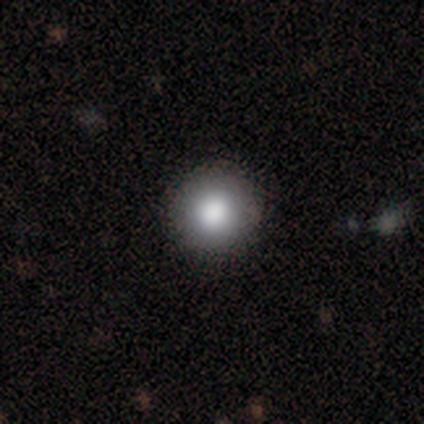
A smooth galaxy with no disk features (79%) that is round (97%).

Vote fractions:
- Smooth or featured? smooth: 79% / featured or disk: 15% / star or artifact: 5%
- How rounded? round: 97% / in between: 3% / cigar-shaped: 0%
- Merging? none: 76% / minor disturbance: 5% / major disturbance: 0% / merger: 0%